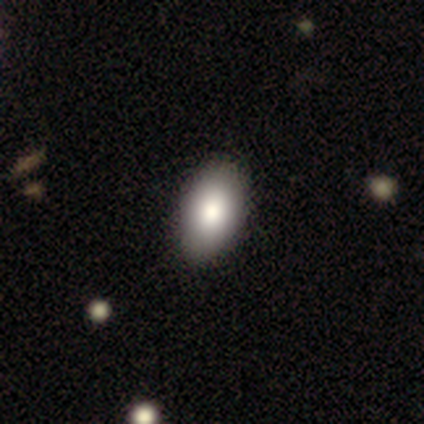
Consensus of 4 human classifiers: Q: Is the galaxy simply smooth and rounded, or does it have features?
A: featured or disk — 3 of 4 (75%).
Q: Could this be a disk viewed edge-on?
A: no — 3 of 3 (100%).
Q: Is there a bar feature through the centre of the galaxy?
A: no — 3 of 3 (100%).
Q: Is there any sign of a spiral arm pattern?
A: no — 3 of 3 (100%).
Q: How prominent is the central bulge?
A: moderate — 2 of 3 (67%).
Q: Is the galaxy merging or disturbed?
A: none — 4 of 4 (100%).